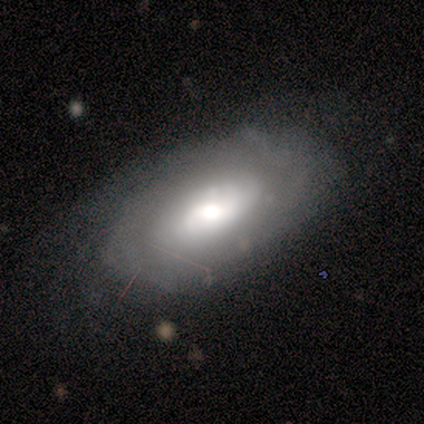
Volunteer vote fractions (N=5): Q: Smooth or featured?
A: smooth (60%); runner-up: featured or disk (40%)
Q: How rounded?
A: in between (100%)
Q: Merging?
A: none (100%)